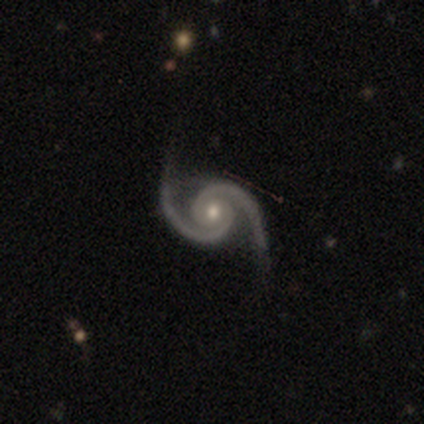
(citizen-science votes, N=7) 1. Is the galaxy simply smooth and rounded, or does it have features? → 100% featured or disk, 0% smooth, 0% star or artifact.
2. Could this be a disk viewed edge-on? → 100% no, 0% yes.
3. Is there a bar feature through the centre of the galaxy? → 86% no, 14% weak, 0% strong.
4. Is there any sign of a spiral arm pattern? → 100% yes, 0% no.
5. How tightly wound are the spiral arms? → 57% medium, 43% tight, 0% loose.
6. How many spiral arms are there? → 100% 2, 0% 1, 0% 3, 0% 4, 0% more than 4, 0% can't tell.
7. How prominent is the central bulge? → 57% moderate, 43% small, 0% dominant, 0% large, 0% none.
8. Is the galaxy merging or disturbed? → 86% none, 14% minor disturbance, 0% major disturbance, 0% merger.